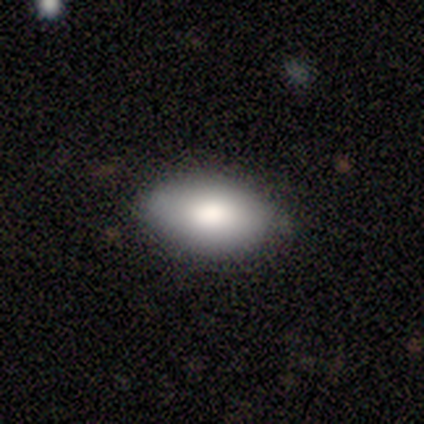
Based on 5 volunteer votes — Smooth or featured?
  - smooth: 100% *
  - featured or disk: 0%
  - star or artifact: 0%
How rounded?
  - in between: 80% *
  - round: 20%
  - cigar-shaped: 0%
Merging?
  - none: 80% *
  - minor disturbance: 20%
  - major disturbance: 0%
  - merger: 0%